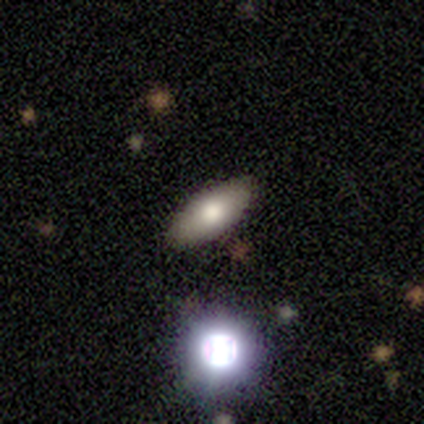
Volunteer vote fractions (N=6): Q: Smooth or featured?
A: smooth (83%); runner-up: star or artifact (17%)
Q: How rounded?
A: in between (100%)
Q: Merging?
A: none (60%); runner-up: minor disturbance (40%)